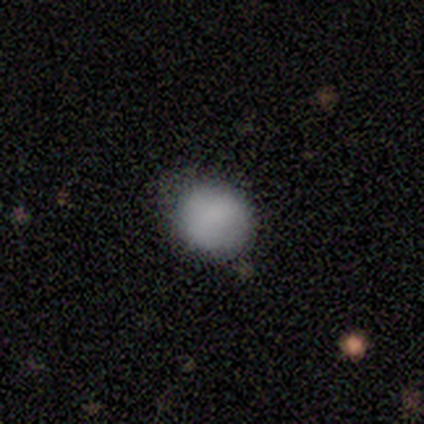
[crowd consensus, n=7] smooth_or_featured: smooth (p=1.00)
how_rounded: round (p=0.86) [alt: in between p=0.14]
merging: minor disturbance (p=0.57) [alt: none p=0.43]